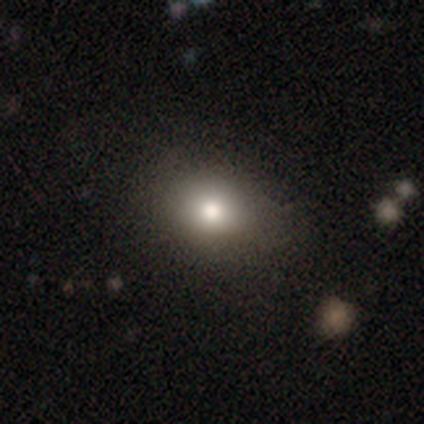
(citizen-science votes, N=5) Smooth or featured?
  - smooth: 80% *
  - featured or disk: 20%
  - star or artifact: 0%
How rounded?
  - in between: 100% *
  - round: 0%
  - cigar-shaped: 0%
Merging?
  - none: 80% *
  - minor disturbance: 20%
  - major disturbance: 0%
  - merger: 0%